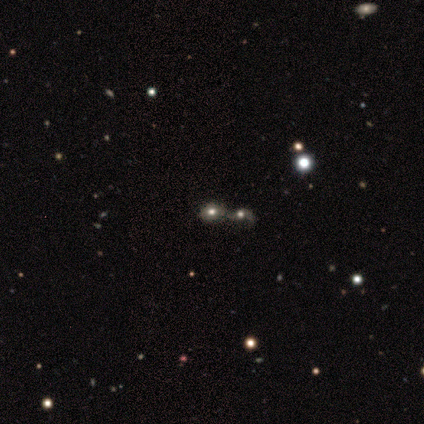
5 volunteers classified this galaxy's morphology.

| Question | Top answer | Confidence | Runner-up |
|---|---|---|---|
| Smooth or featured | smooth | 80% | star or artifact (20%) |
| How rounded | round | 75% | in between (25%) |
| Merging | none | 50% | tied: merger (50%) |